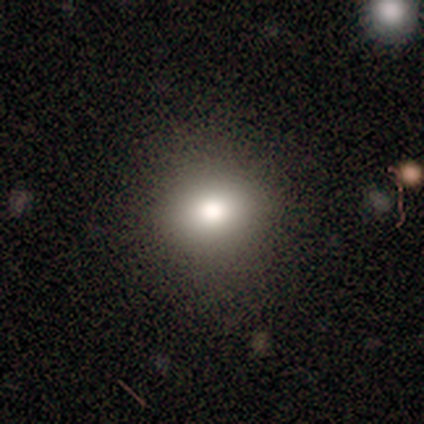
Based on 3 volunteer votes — Smooth or featured? 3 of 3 (100%) said smooth. How rounded? 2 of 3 (67%) said round. Merging? 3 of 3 (100%) said none.